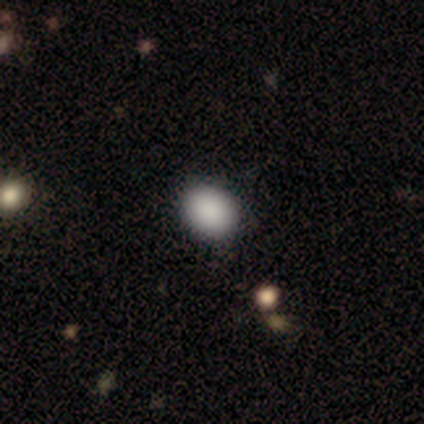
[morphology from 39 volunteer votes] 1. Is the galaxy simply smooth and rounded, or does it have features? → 92% smooth, 5% star or artifact, 3% featured or disk.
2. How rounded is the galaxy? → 56% round, 44% in between, 0% cigar-shaped.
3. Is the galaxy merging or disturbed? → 89% none, 8% minor disturbance, 3% major disturbance, 0% merger.